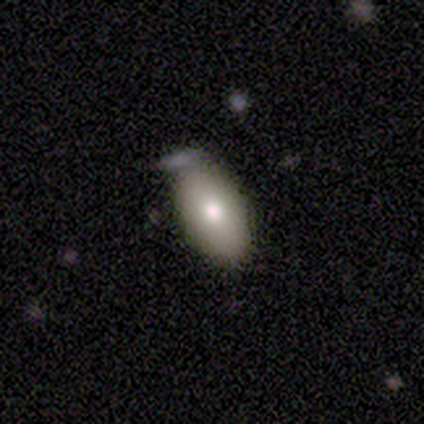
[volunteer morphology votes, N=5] smooth_or_featured: smooth (p=0.40) [tied with: featured or disk p=0.40]
how_rounded: in between (p=1.00)
merging: none (p=0.50) [tied with: minor disturbance p=0.50]